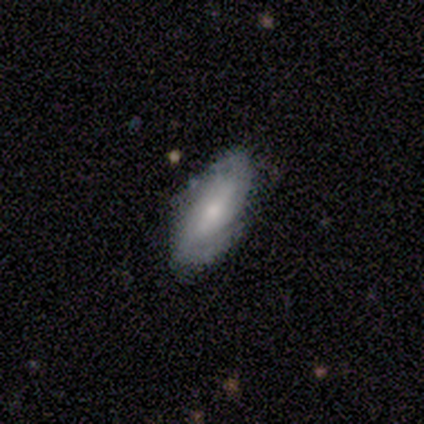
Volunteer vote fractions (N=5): A featured or disk galaxy (80%) with a strong bar (50%), 2 (100%) tight (50%, tied with medium) spiral arms (100%) and a small central bulge (75%).

Vote fractions:
- Smooth or featured? featured or disk: 80% / smooth: 20% / star or artifact: 0%
- Edge-on disk? no: 100% / yes: 0%
- Bar? strong: 50% / weak: 25% / no: 25%
- Spiral arms? yes: 100% / no: 0%
- Spiral winding? tight: 50% (tied) / medium: 50% (tied) / loose: 0%
- Spiral arm count? 2: 100% / 1: 0% / 3: 0% / 4: 0% / more than 4: 0% / can't tell: 0%
- Bulge size? small: 75% / moderate: 25% / dominant: 0% / large: 0% / none: 0%
- Merging? none: 100% / minor disturbance: 0% / major disturbance: 0% / merger: 0%